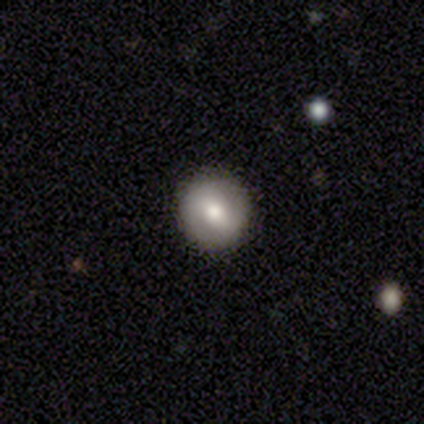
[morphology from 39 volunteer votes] Smooth or featured: smooth — 49% (featured or disk — 44%)
How rounded: round — 100%
Merging: none — 81% (minor disturbance — 17%)